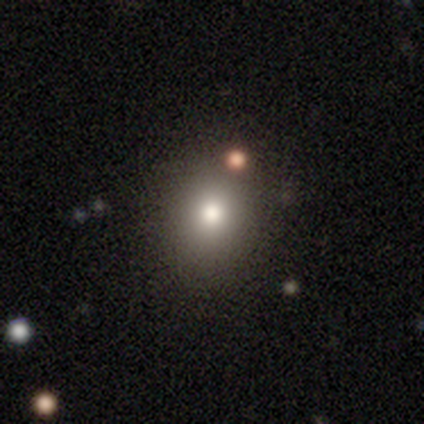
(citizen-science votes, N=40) Volunteers were most divided on "how rounded": round: 74%, in between: 26%, cigar-shaped: 0%. More confident: merging — none (80%); smooth or featured — smooth (78%).